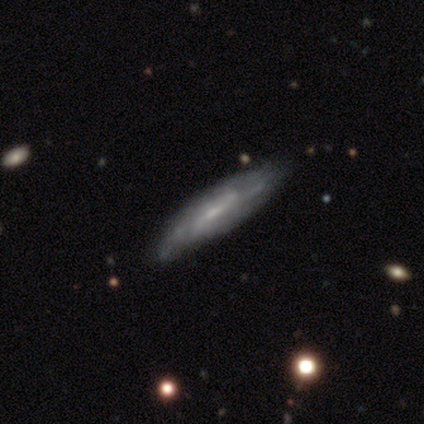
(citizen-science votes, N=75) Morphology: type=featured or disk (76%); edge-on=yes (53%); edge-on bulge=none (53%); merging=none (35%).